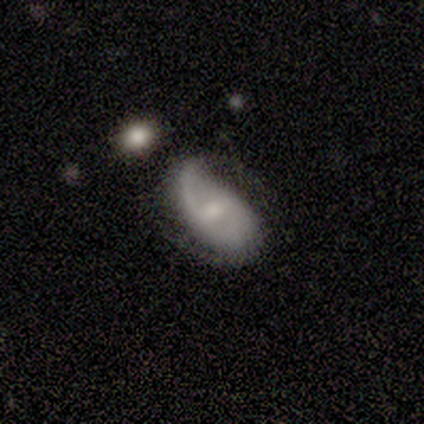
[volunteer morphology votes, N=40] A featured or disk galaxy (88%) with a weak bar (63%), 2 (85%) loose (47%) spiral arms (97%) and a moderate central bulge (49%). Merging: none (46%).